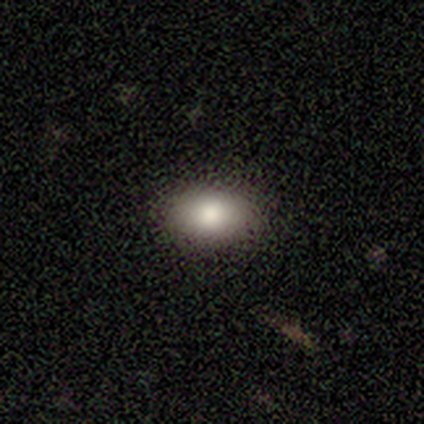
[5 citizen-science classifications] Overall: smooth (80%). How rounded: in between (100%). Merging: none (100%).